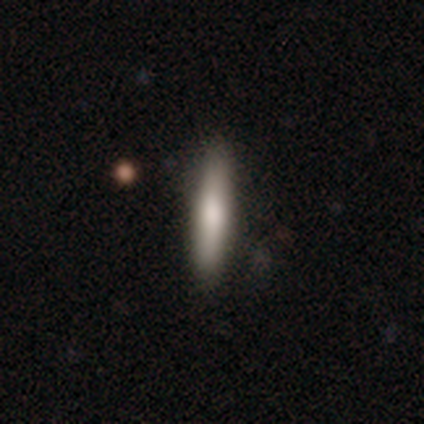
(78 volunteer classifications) Q: Smooth or featured?
A: smooth (74%); runner-up: featured or disk (24%)
Q: How rounded?
A: cigar-shaped (90%); runner-up: in between (10%)
Q: Merging?
A: none (44%); runner-up: minor disturbance (8%)